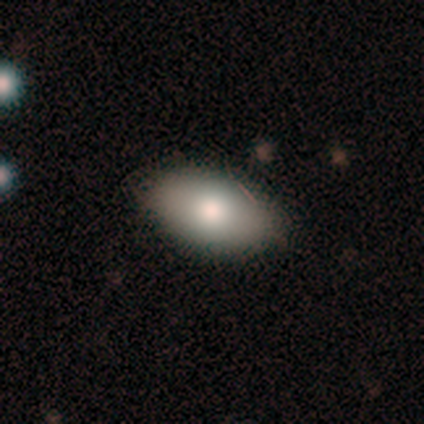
This is clearly a smooth galaxy (92%). How rounded: clearly in between (91%). Merging: clearly none (100%).